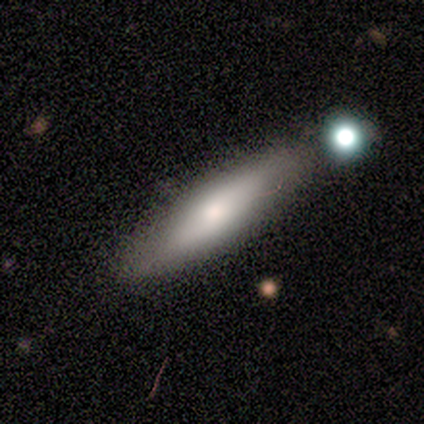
Volunteers were most divided on "how rounded": cigar-shaped: 55%, in between: 45%, round: 0%. More confident: merging — none (84%); smooth or featured — smooth (67%).